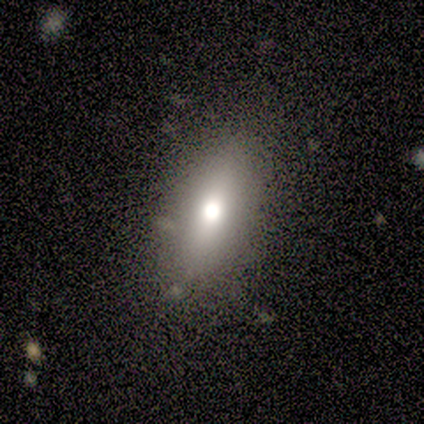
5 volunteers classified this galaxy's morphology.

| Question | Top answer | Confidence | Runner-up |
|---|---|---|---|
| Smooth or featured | smooth | 80% | featured or disk (20%) |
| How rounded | in between | 100% | — |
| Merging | none | 40% | tied: minor disturbance (40%) |